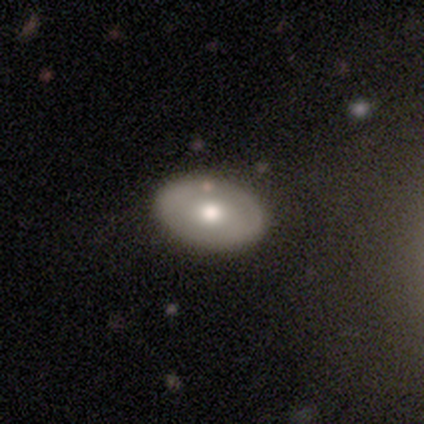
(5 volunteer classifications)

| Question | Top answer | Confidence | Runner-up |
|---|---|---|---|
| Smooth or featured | smooth | 60% | featured or disk (40%) |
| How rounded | in between | 100% | — |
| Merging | none | 80% | merger (20%) |